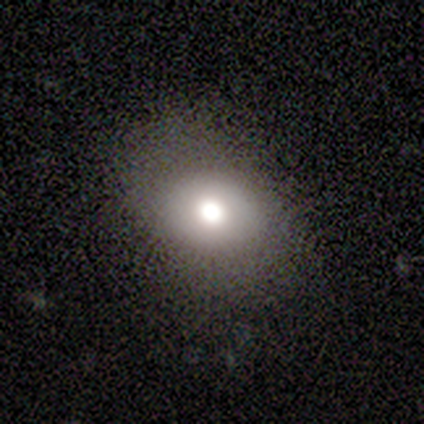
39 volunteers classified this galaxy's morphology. Smooth or featured: smooth — 82% (star or artifact — 10%)
How rounded: in between — 59% (round — 41%)
Merging: none — 74% (minor disturbance — 17%)